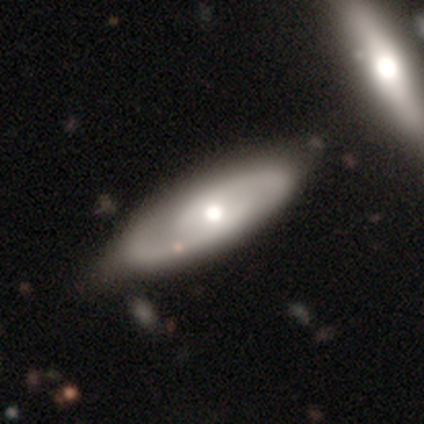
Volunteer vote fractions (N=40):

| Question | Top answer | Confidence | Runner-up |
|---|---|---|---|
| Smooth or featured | featured or disk | 78% | smooth (22%) |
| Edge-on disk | no | 90% | yes (10%) |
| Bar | no | 75% | weak (25%) |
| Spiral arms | yes | 82% | no (18%) |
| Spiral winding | tight | 43% | tied: medium (43%) |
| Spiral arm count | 2 | 96% | can't tell (4%) |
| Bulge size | moderate | 68% | large (14%) |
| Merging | none | 55% | minor disturbance (12%) |